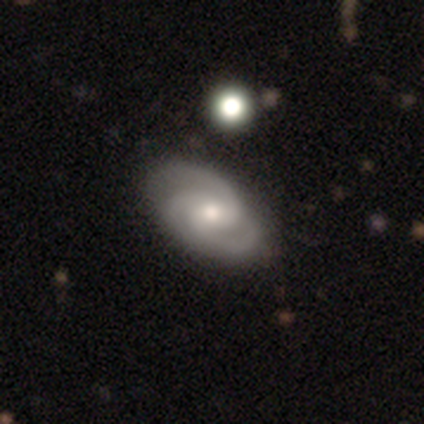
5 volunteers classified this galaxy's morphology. Smooth or featured? featured or disk (60%)
Edge-on disk? no (100%)
Bar? no (100%)
Spiral arms? yes (100%)
Spiral winding? medium (67%)
Spiral arm count? 3 (67%)
Bulge size? moderate (67%)
Merging? none (60%)